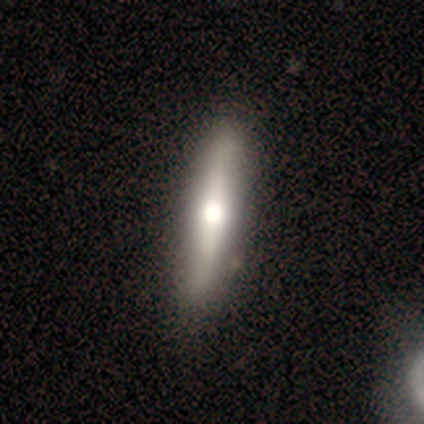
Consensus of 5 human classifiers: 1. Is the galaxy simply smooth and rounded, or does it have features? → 80% featured or disk, 20% smooth, 0% star or artifact.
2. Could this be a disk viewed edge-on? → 100% yes, 0% no.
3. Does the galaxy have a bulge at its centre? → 75% rounded, 25% boxy, 0% none.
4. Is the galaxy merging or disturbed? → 100% none, 0% minor disturbance, 0% major disturbance, 0% merger.